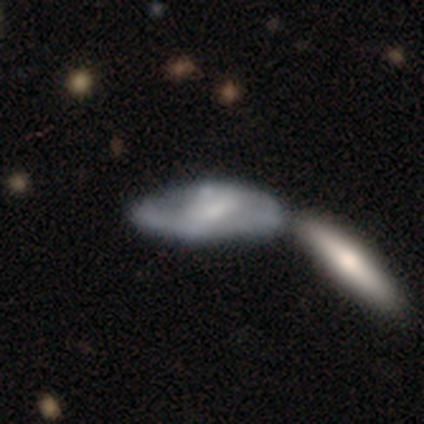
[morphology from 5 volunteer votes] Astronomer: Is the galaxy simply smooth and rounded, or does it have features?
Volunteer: smooth — 40%, tied with featured or disk at 40%.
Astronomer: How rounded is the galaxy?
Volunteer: in between — 100%.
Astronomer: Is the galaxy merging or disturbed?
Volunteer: merger — 50%.